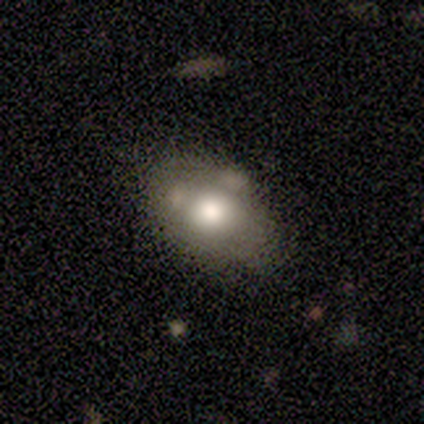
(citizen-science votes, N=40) smooth_or_featured: smooth (p=0.72) [alt: featured or disk p=0.25]
how_rounded: in between (p=0.83) [alt: round p=0.17]
merging: none (p=0.67) [alt: minor disturbance p=0.18]